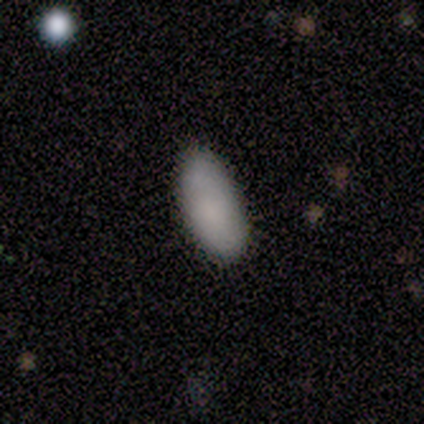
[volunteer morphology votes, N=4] Smooth or featured?
  - smooth: 75% *
  - featured or disk: 25%
  - star or artifact: 0%
How rounded?
  - in between: 100% *
  - round: 0%
  - cigar-shaped: 0%
Merging?
  - none: 50% * (tied)
  - minor disturbance: 50% * (tied)
  - major disturbance: 0%
  - merger: 0%